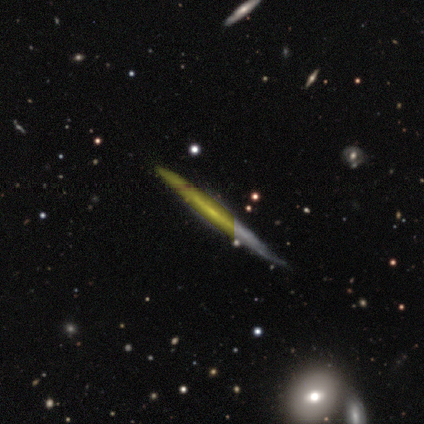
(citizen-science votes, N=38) Volunteers were most divided on "smooth or featured": featured or disk: 71%, smooth: 16%, star or artifact: 13%. More confident: edge-on disk — yes (93%); edge-on bulge — none (92%); merging — none (88%).